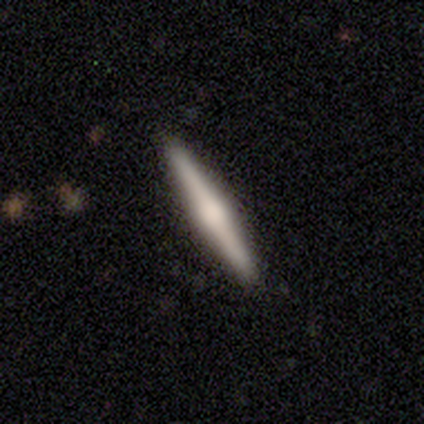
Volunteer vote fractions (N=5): A featured or disk galaxy (100%) viewed edge-on (100%) with a rounded central bulge (80%). Merging: none (100%).